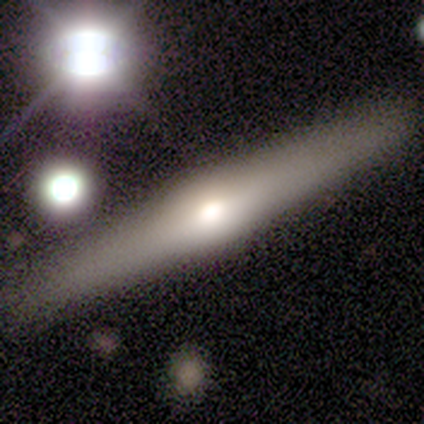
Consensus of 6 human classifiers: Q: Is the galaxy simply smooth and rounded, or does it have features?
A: featured or disk — 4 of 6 (67%).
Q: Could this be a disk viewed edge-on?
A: yes — 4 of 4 (100%).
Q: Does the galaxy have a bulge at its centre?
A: rounded — 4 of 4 (100%).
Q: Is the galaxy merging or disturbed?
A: none — 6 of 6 (100%).